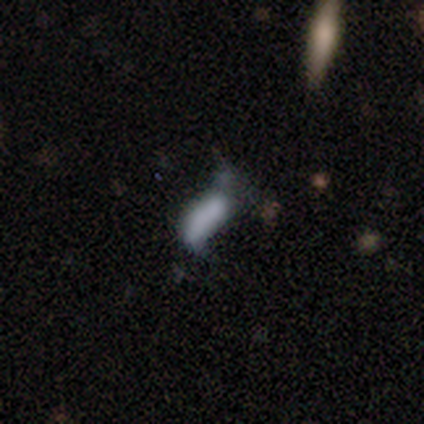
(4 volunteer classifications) Overall: featured or disk (50%; smooth 25%). Edge-on disk: no (100%). Bar: weak (50%, tied with no). Spiral arms: yes (50%, tied with no). Spiral arm count: 2 (100%). Spiral winding: loose (100%). Bulge size: none (100%). Merging: none (33%, tied with minor disturbance and major disturbance).